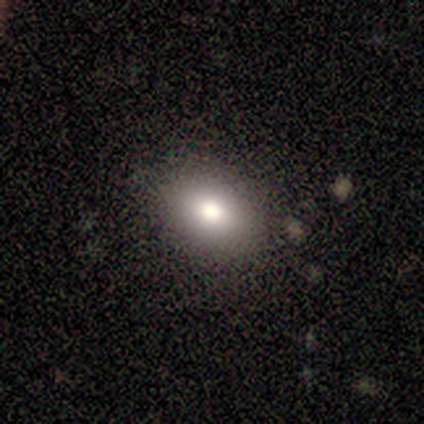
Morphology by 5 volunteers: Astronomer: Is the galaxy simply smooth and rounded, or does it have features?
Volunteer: smooth — 100%.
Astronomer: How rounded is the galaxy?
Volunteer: in between — 100%.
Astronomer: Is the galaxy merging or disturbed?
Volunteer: none — 80%.